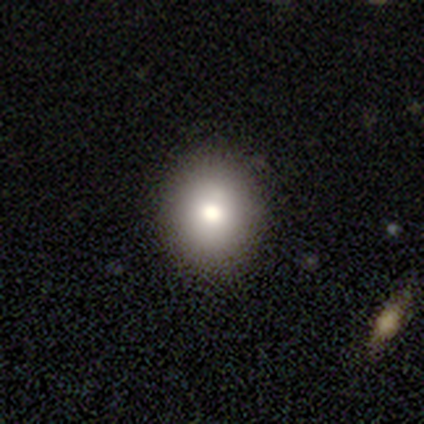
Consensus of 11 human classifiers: Morphology: type=smooth (82%); roundness=round (56%); merging=none (70%).